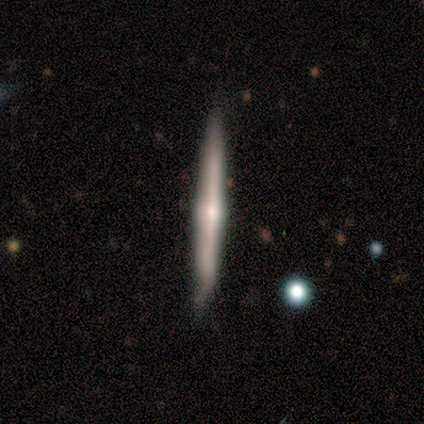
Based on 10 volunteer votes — Overall: smooth (50%, tied with featured or disk). How rounded: cigar-shaped (100%). Merging: none (80%).